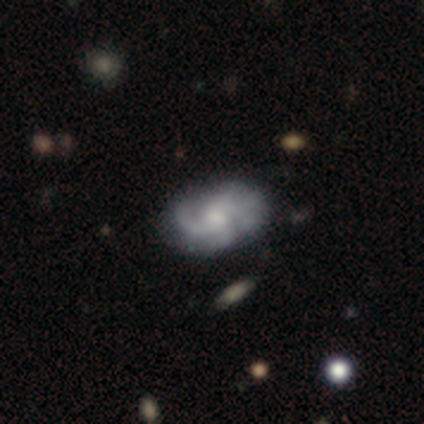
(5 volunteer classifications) smooth-or-featured: smooth: 40% (tied) | featured or disk: 40% (tied) | star or artifact: 20%
  how-rounded: in between: 100% | round: 0% | cigar-shaped: 0%
  merging: none: 75% | minor disturbance: 25% | major disturbance: 0% | merger: 0%